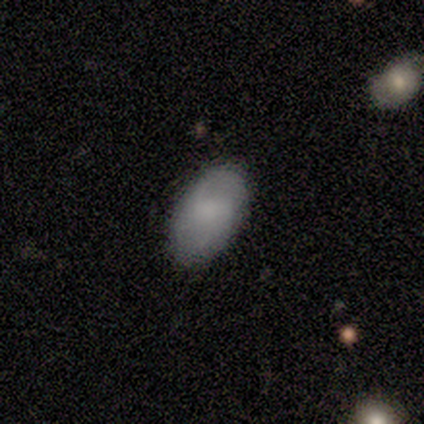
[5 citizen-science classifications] Volunteers were most divided on "merging": none: 60%, minor disturbance: 40%, major disturbance: 0%, merger: 0%. More confident: how rounded — in between (100%); smooth or featured — smooth (80%).